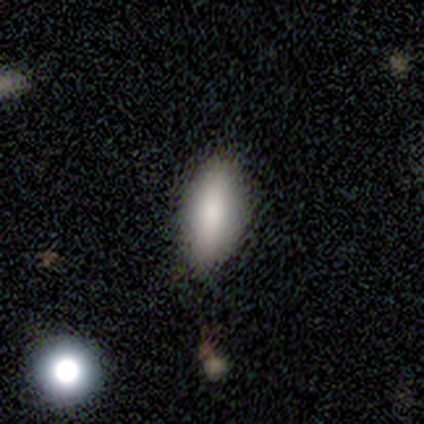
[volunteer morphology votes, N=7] smooth_or_featured: smooth (p=0.86) [alt: featured or disk p=0.14]
how_rounded: in between (p=0.50) [tied with: cigar-shaped p=0.50]
merging: none (p=0.86) [alt: minor disturbance p=0.14]